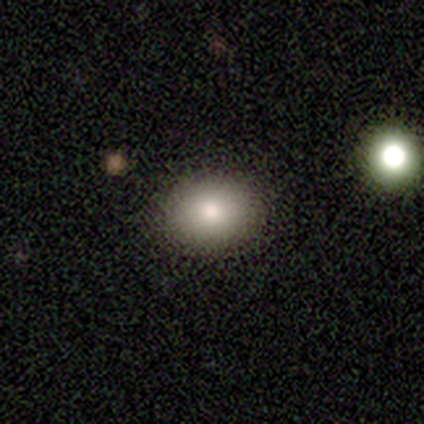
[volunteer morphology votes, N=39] Overall: smooth (69%). How rounded: in between (52%; round 48%). Merging: none (94%).